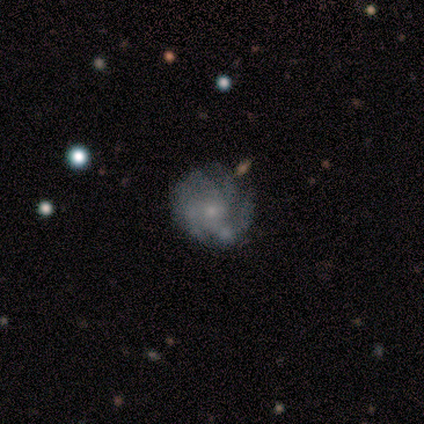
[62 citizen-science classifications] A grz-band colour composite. It shows a featured or disk galaxy (81%) with no bar (92%), 4 (44%) tight (47%) spiral arms (90%) and a small central bulge (68%). Merging: none (51%).